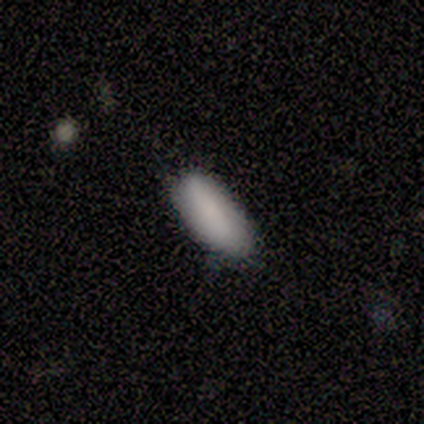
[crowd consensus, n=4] A smooth galaxy with no disk features (100%) that is in between round and cigar-shaped (75%). Merging: none (75%).